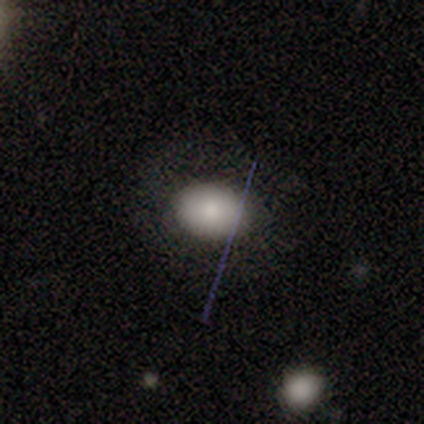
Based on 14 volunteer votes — Volunteers were most divided on "how rounded": in between: 58%, round: 42%, cigar-shaped: 0%. More confident: merging — none (100%); smooth or featured — smooth (86%).